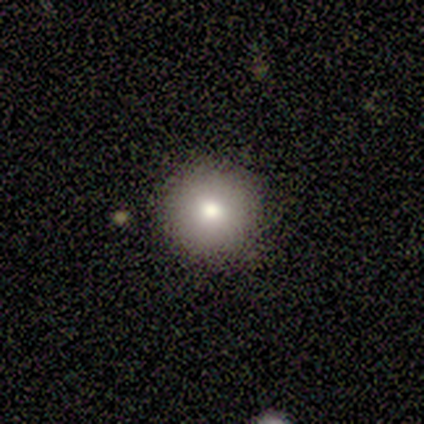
Q: Smooth or featured?
A: smooth (60%); runner-up: featured or disk (20%)
Q: How rounded?
A: round (100%)
Q: Merging?
A: none (100%)